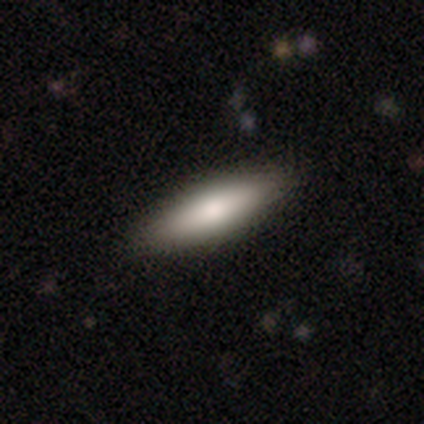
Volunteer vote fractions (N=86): Morphology: type=smooth (74%); roundness=cigar-shaped (58%); merging=none (93%).